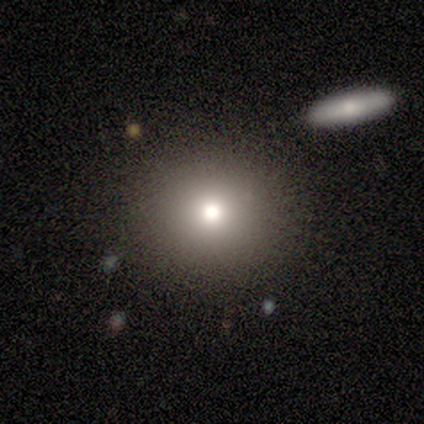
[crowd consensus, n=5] A smooth galaxy with no disk features (60%) that is round (100%).

Vote fractions:
- Smooth or featured? smooth: 60% / featured or disk: 20% / star or artifact: 20%
- How rounded? round: 100% / in between: 0% / cigar-shaped: 0%
- Merging? none: 100% / minor disturbance: 0% / major disturbance: 0% / merger: 0%